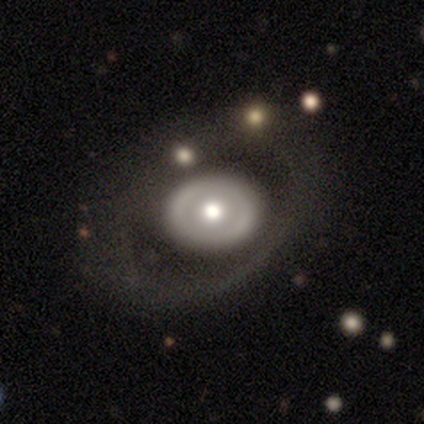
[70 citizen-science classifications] Smooth or featured? 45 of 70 (64%) said featured or disk. Edge-on disk? 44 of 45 (98%) said no. Bar? 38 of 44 (86%) said no. Spiral arms? 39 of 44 (89%) said no. Bulge size? 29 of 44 (66%) said moderate. Merging? 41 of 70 (59%) said none.